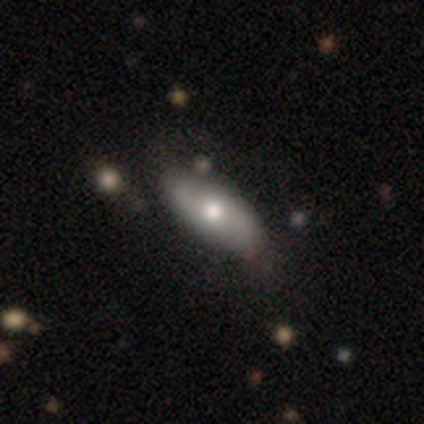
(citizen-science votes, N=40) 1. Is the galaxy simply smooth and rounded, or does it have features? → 50% smooth (tied), 50% featured or disk (tied), 0% star or artifact.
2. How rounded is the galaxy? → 95% in between, 5% cigar-shaped, 0% round.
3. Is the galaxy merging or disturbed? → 62% none, 8% minor disturbance, 2% major disturbance, 0% merger.